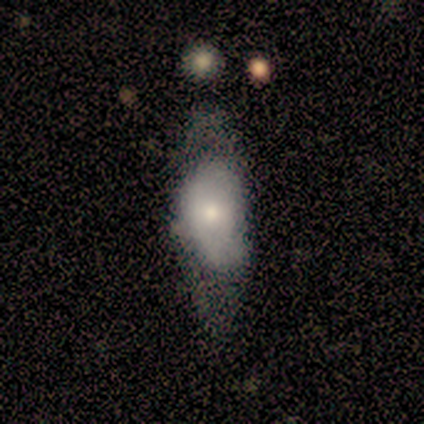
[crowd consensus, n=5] smooth_or_featured: smooth (p=0.80) [alt: featured or disk p=0.20]
how_rounded: in between (p=0.75) [alt: cigar-shaped p=0.25]
merging: none (p=0.40) [tied with: major disturbance p=0.40]